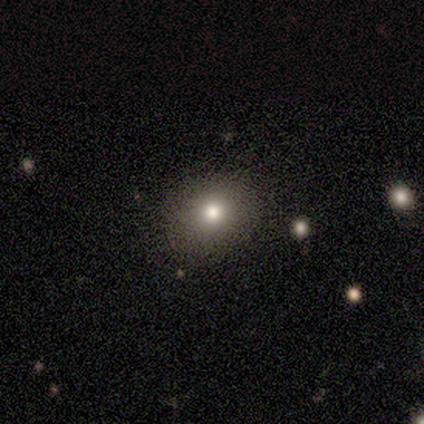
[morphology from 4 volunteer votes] Smooth or featured? 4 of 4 (100%) said smooth. How rounded? 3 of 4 (75%) said round. Merging? 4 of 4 (100%) said none.